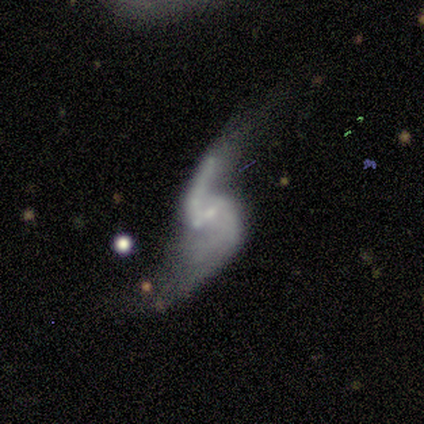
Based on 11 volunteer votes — Volunteers were most divided on "bar": no: 44%, weak: 33%, strong: 22%. Remaining: edge-on disk — no (100%); spiral winding — loose (100%); spiral arm count — 2 (100%); spiral arms — yes (89%); smooth or featured — featured or disk (82%); merging — none (50%); bulge size — small (44%).